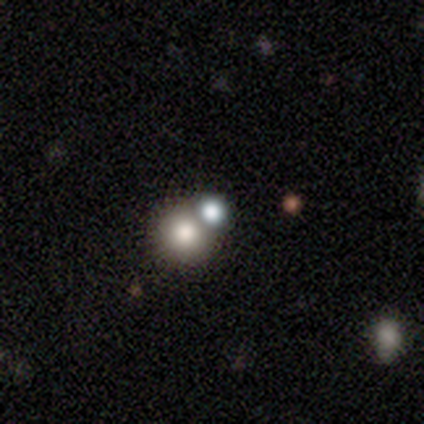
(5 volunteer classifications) Smooth or featured? 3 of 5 (60%) said smooth. How rounded? 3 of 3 (100%) said round. Merging? 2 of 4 (50%, tied with merger) said none.